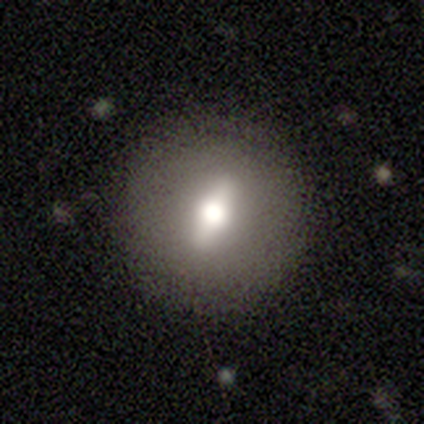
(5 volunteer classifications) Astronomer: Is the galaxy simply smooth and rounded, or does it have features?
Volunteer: featured or disk — 60% (runner-up: smooth, 40%).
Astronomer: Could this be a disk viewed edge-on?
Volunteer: no — 100%.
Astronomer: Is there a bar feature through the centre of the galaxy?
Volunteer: strong — 33%, tied with weak and no at 33%.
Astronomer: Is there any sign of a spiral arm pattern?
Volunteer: no — 100%.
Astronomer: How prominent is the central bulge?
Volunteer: moderate — 67%.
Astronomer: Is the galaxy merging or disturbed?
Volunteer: none — 100%.